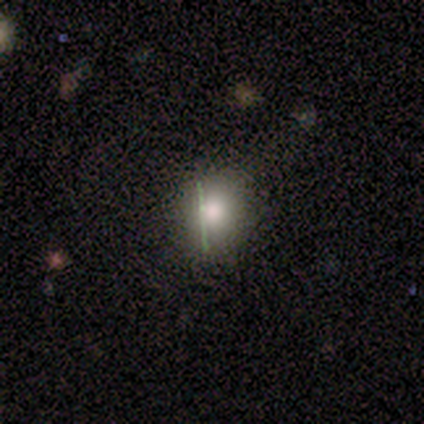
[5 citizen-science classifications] A smooth galaxy with no disk features (40%, tied with star or artifact) that is round (100%). Merging: none (100%).